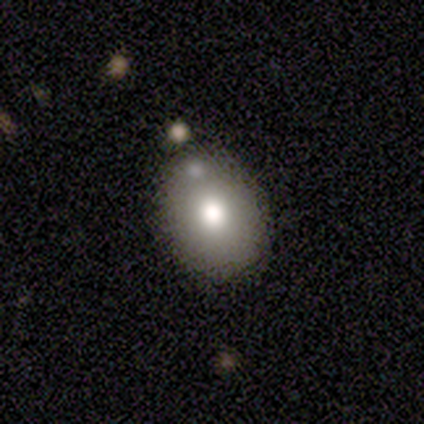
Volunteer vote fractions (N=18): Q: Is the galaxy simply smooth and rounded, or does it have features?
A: smooth — 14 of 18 (78%).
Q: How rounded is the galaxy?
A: round — 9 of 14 (64%).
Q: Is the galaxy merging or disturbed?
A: none — 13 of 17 (76%).